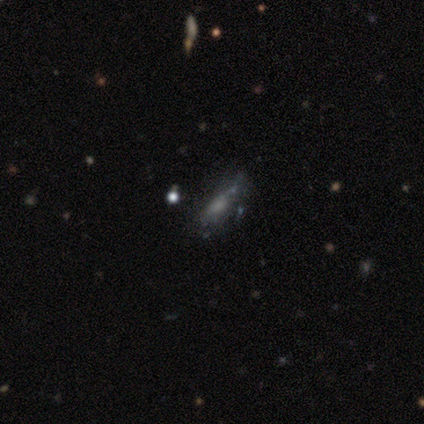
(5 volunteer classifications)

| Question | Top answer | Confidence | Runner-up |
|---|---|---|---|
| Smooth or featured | smooth | 60% | featured or disk (40%) |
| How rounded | in between | 100% | — |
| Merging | none | 60% | minor disturbance (20%) |